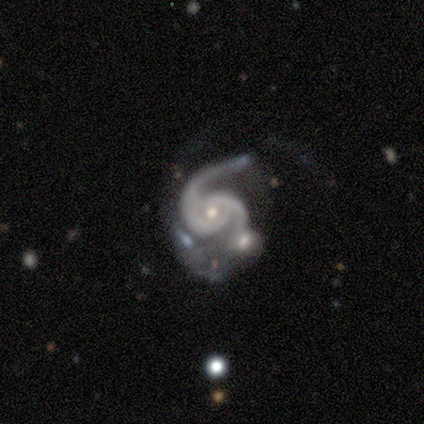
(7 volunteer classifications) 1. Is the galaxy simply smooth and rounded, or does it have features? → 100% featured or disk, 0% smooth, 0% star or artifact.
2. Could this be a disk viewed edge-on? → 100% no, 0% yes.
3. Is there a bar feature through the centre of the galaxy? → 71% no, 29% weak, 0% strong.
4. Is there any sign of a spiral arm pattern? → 100% yes, 0% no.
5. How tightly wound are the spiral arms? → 43% tight, 29% medium, 29% loose.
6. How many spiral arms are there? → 100% 2, 0% 1, 0% 3, 0% 4, 0% more than 4, 0% can't tell.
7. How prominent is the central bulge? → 57% moderate, 29% small, 14% none, 0% dominant, 0% large.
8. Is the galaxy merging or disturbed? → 29% none (tied), 29% minor disturbance (tied), 29% major disturbance (tied), 14% merger.